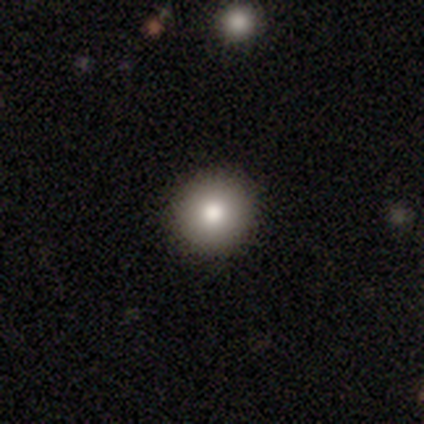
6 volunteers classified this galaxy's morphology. smooth_or_featured: smooth (p=0.67) [alt: featured or disk p=0.17]
how_rounded: round (p=1.00)
merging: none (p=1.00)